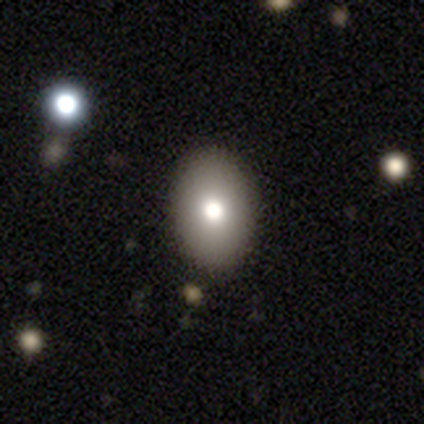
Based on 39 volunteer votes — Morphology: type=smooth (67%); roundness=in between (81%); merging=none (100%).